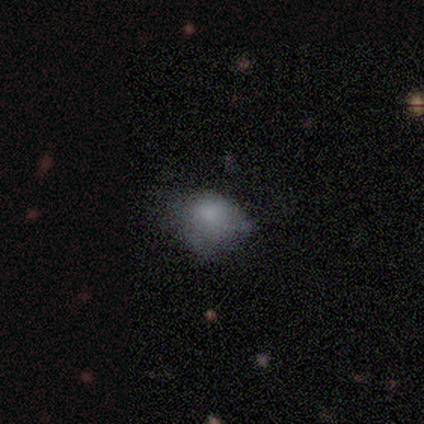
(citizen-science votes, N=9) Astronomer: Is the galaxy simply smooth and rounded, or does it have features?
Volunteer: smooth — 56% (runner-up: featured or disk, 33%).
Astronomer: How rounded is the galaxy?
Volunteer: in between — 60% (runner-up: round, 40%).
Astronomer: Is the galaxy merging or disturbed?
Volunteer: minor disturbance — 38% (runner-up: none, 25%).